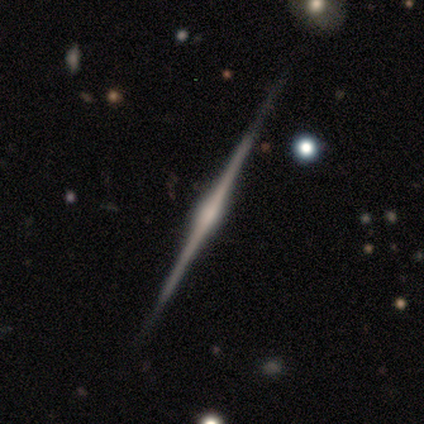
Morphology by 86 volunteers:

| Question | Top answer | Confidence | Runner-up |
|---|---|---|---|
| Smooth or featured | featured or disk | 93% | smooth (5%) |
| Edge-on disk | yes | 99% | no (1%) |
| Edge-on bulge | rounded | 81% | none (10%) |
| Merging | none | 93% | minor disturbance (4%) |